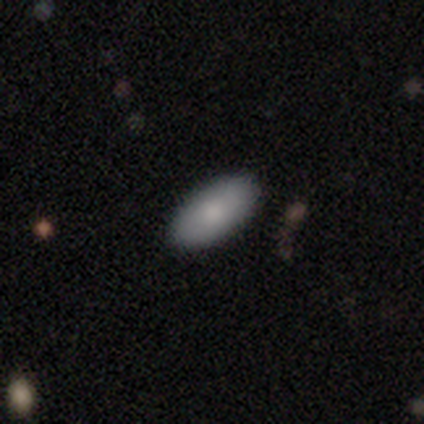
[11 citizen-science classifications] This appears to be a smooth galaxy with no disk features (100%) that is in between round and cigar-shaped (73%). Merging: none (100%).